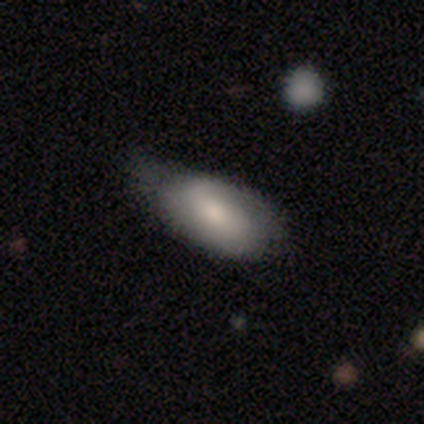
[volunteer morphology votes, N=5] A smooth galaxy with no disk features (60%) that is in between round and cigar-shaped (67%).

Vote fractions:
- Smooth or featured? smooth: 60% / featured or disk: 20% / star or artifact: 20%
- How rounded? in between: 67% / cigar-shaped: 33% / round: 0%
- Merging? none: 50% (tied) / minor disturbance: 50% (tied) / major disturbance: 0% / merger: 0%